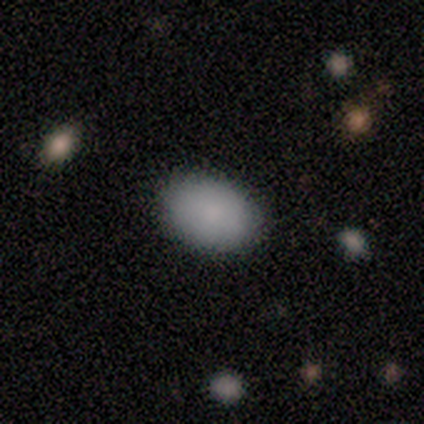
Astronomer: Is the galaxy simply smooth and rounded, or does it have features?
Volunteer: smooth — 80%.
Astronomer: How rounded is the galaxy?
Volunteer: in between — 75%.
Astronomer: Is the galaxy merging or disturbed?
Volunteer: none — 80%.